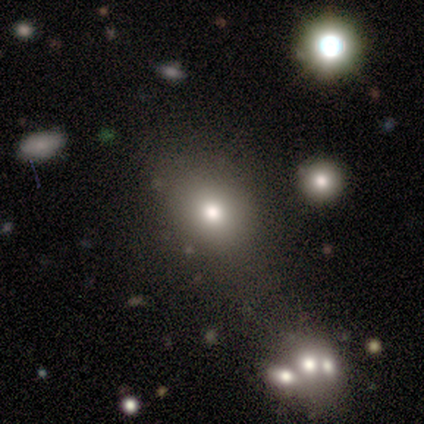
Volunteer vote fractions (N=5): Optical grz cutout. It shows a smooth galaxy with no disk features (60%) that is in between round and cigar-shaped (67%). Merging: none (100%).